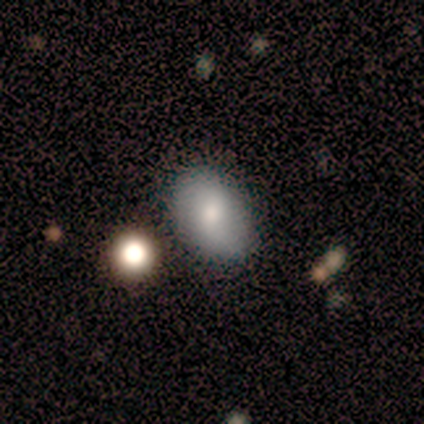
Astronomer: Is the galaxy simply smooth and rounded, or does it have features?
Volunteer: smooth — 80%.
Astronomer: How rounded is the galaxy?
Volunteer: round — 50%, tied with in between at 50%.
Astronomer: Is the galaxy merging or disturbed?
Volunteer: none — 60% (runner-up: minor disturbance, 40%).